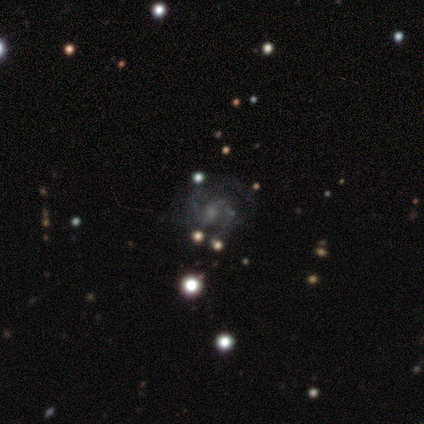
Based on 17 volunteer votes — Smooth or featured? featured or disk (65%)
Edge-on disk? no (100%)
Bar? no (45%)
Spiral arms? yes (100%)
Spiral winding? medium (73%)
Spiral arm count? 2 (91%)
Bulge size? small (64%)
Merging? none (64%)